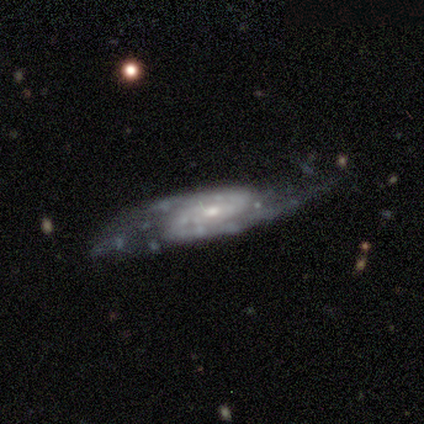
Overall: featured or disk (92%). Edge-on disk: no (83%). Bar: no (53%; weak 40%). Spiral arms: yes (100%). Spiral arm count: 2 (87%). Spiral winding: medium (43%; tight 40%). Bulge size: small (60%; moderate 40%). Merging: none (61%; minor disturbance 26%).